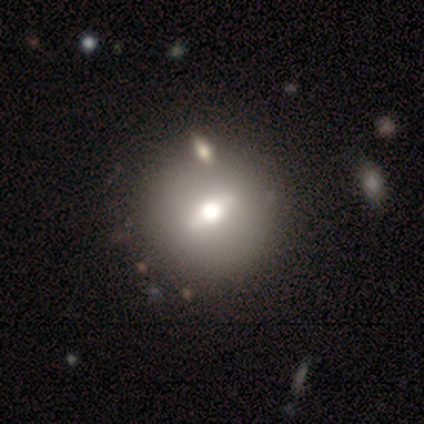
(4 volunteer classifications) A featured or disk galaxy (50%) with a strong bar (50%, tied with weak), no spiral arms (100%) and a moderate central bulge (100%).

Vote fractions:
- Smooth or featured? featured or disk: 50% / smooth: 25% / star or artifact: 25%
- Edge-on disk? no: 100% / yes: 0%
- Bar? strong: 50% (tied) / weak: 50% (tied) / no: 0%
- Spiral arms? no: 100% / yes: 0%
- Bulge size? moderate: 100% / dominant: 0% / large: 0% / small: 0% / none: 0%
- Merging? none: 67% / minor disturbance: 33% / major disturbance: 0% / merger: 0%